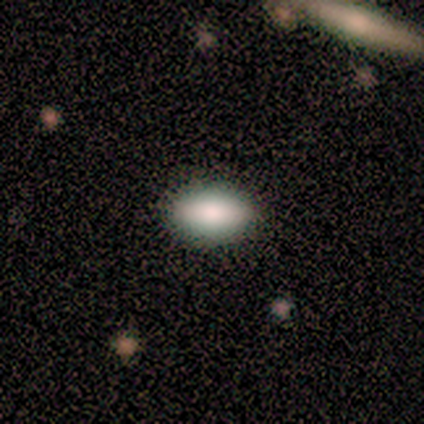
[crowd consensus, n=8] Smooth or featured: smooth — 88% (featured or disk — 12%)
How rounded: in between — 86% (cigar-shaped — 14%)
Merging: none — 88% (minor disturbance — 12%)